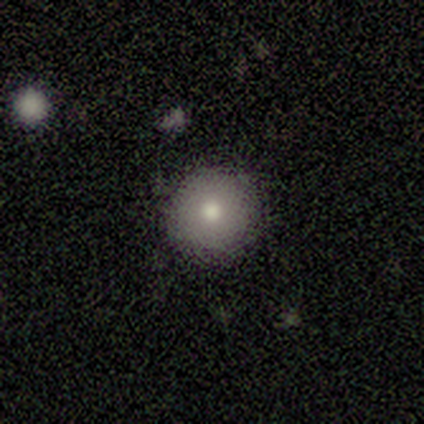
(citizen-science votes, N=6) Q: Smooth or featured?
A: smooth (83%); runner-up: featured or disk (17%)
Q: How rounded?
A: round (100%)
Q: Merging?
A: none (100%)